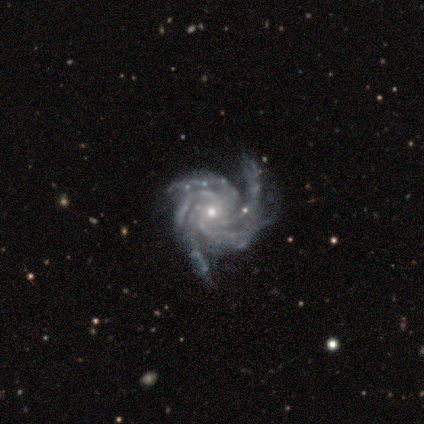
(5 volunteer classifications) A featured or disk galaxy (80%) with no bar (50%), 4 (50%) tight (100%) spiral arms (100%) and a moderate central bulge (75%). Merging: none (75%).